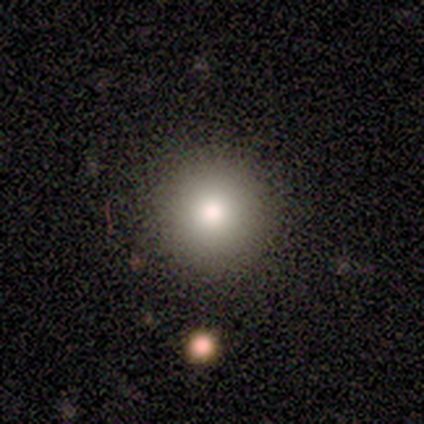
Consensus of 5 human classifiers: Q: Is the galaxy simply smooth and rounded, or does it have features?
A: smooth — 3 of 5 (60%).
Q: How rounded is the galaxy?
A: round — 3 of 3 (100%).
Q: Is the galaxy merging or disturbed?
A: none — 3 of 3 (100%).